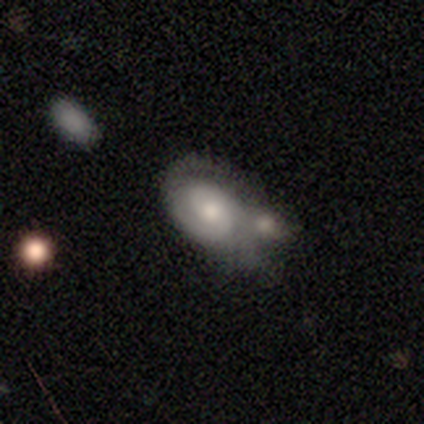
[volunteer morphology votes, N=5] Volunteers were most divided on "spiral arm count" (3-way tie): 1: 33%, 2: 33%, can't tell: 33%, 3: 0%, 4: 0%, more than 4: 0%. More confident: edge-on disk — no (100%); spiral arms — yes (100%); bar — no (67%); spiral winding — medium (67%); bulge size — moderate (67%); smooth or featured — featured or disk (60%); merging — merger (60%).